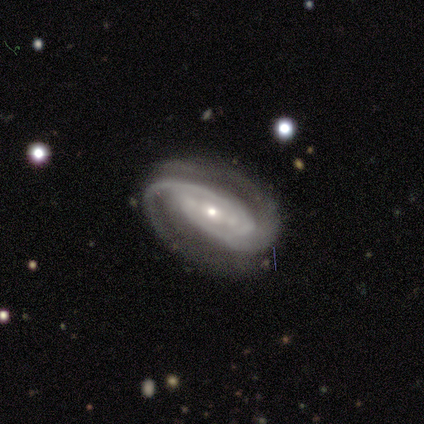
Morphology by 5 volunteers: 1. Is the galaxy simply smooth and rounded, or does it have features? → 80% featured or disk, 20% star or artifact, 0% smooth.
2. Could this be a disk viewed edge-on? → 100% no, 0% yes.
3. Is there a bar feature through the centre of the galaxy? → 50% strong, 25% weak, 25% no.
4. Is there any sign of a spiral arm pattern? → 100% yes, 0% no.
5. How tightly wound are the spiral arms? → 50% tight, 25% medium, 25% loose.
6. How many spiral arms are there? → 75% 2, 25% can't tell, 0% 1, 0% 3, 0% 4, 0% more than 4.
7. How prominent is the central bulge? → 100% small, 0% dominant, 0% large, 0% moderate, 0% none.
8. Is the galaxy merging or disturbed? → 100% none, 0% minor disturbance, 0% major disturbance, 0% merger.